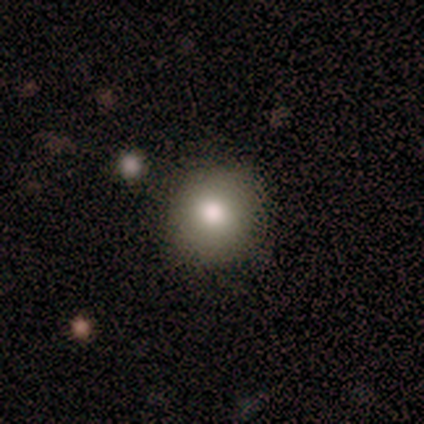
Smooth or featured?
  - smooth: 60% *
  - featured or disk: 20%
  - star or artifact: 20%
How rounded?
  - round: 67% *
  - in between: 33%
  - cigar-shaped: 0%
Merging?
  - none: 100% *
  - minor disturbance: 0%
  - major disturbance: 0%
  - merger: 0%